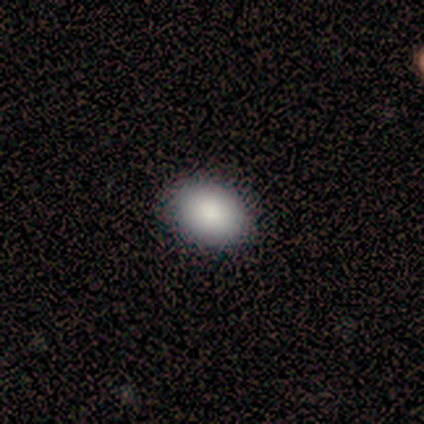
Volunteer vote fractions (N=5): Smooth or featured? 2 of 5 (40%, tied with star or artifact) said smooth. How rounded? 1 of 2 (50%, tied with in between) said round. Merging? 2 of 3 (67%) said none.